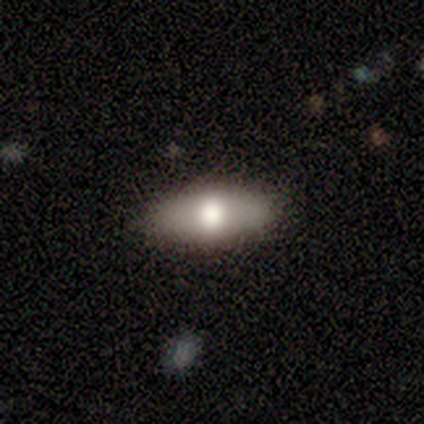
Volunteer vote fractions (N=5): Smooth or featured?
  - smooth: 100% *
  - featured or disk: 0%
  - star or artifact: 0%
How rounded?
  - in between: 100% *
  - round: 0%
  - cigar-shaped: 0%
Merging?
  - none: 100% *
  - minor disturbance: 0%
  - major disturbance: 0%
  - merger: 0%